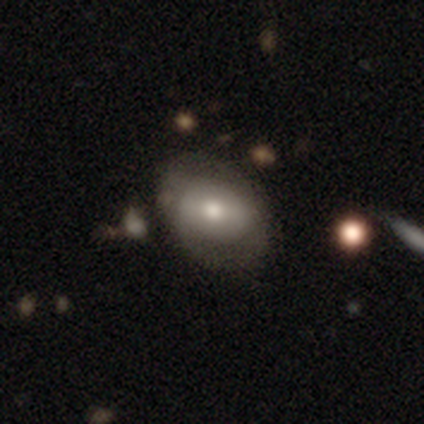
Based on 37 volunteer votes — This is possibly a smooth galaxy (57%). How rounded: likely in between (62%). Merging: likely none (74%).